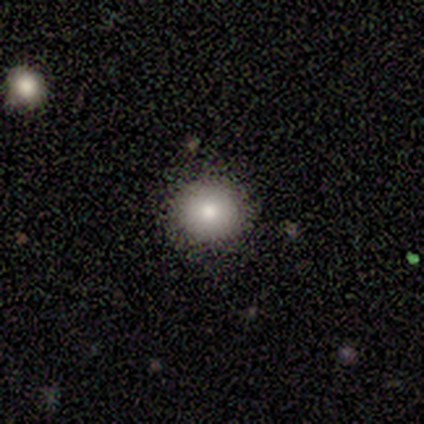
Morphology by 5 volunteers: Smooth or featured: smooth — 100%
How rounded: round — 80% (in between — 20%)
Merging: none — 100%